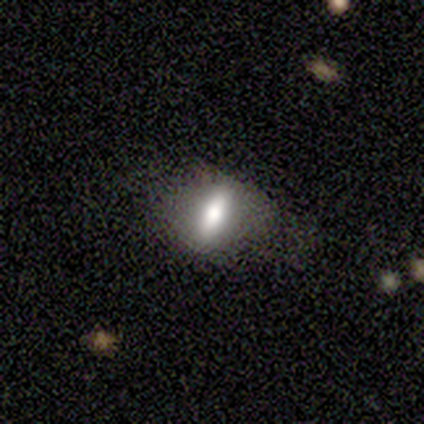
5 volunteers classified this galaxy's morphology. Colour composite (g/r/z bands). It shows a smooth galaxy with no disk features (60%) that is cigar-shaped (100%). Merging: none (80%).